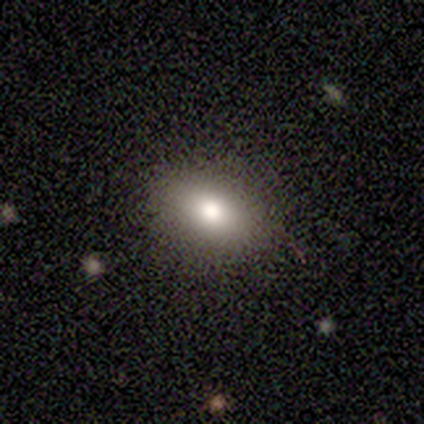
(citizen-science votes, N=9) A smooth galaxy with no disk features (78%) that is in between round and cigar-shaped (86%).

Vote fractions:
- Smooth or featured? smooth: 78% / featured or disk: 22% / star or artifact: 0%
- How rounded? in between: 86% / round: 14% / cigar-shaped: 0%
- Merging? none: 78% / minor disturbance: 22% / major disturbance: 0% / merger: 0%